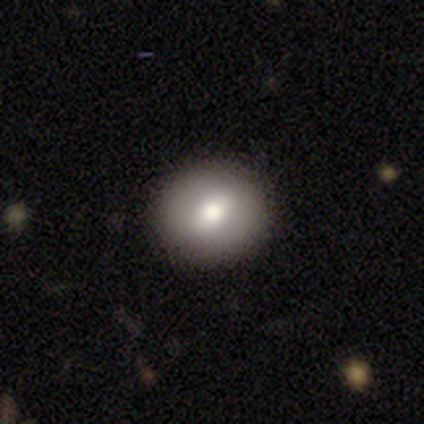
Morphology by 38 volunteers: A smooth galaxy with no disk features (53%) that is round (85%). Merging: none (97%).